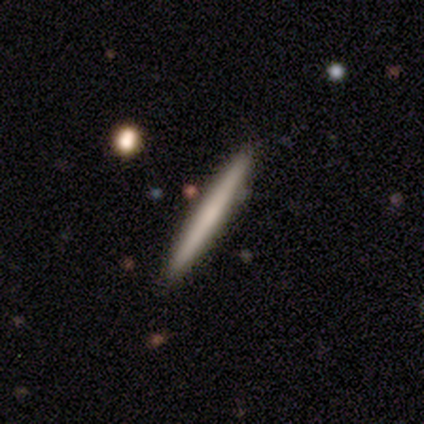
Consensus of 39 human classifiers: smooth 59%, featured or disk 41%, star or artifact 0%. Down the decision tree: how rounded — cigar-shaped (100%); merging — none (85%).